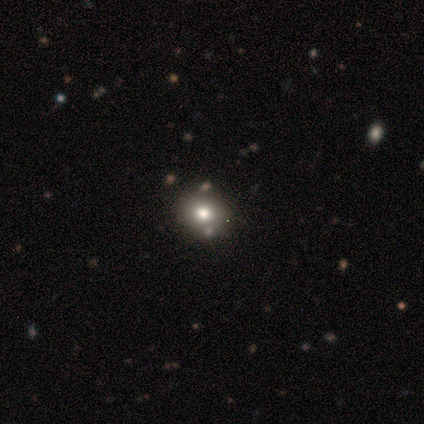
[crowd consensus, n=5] Morphology: type=smooth (80%); roundness=round (75%); merging=none (100%).